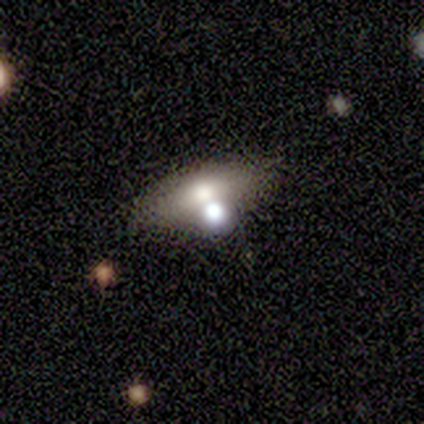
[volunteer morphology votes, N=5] smooth 40% (tied), star or artifact 40% (tied), featured or disk 20%. Down the decision tree: how rounded — round (50%, tied with in between); merging — none (67%).